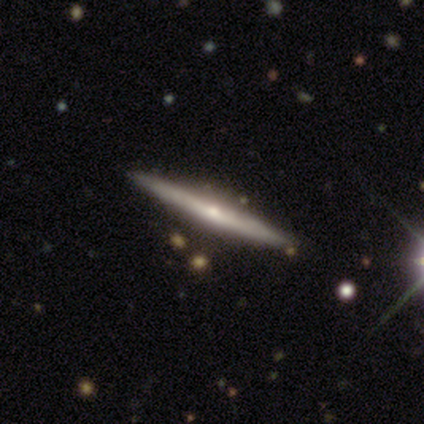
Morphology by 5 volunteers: Volunteers were most divided on "merging": none: 60%, minor disturbance: 20%, major disturbance: 20%, merger: 0%. More confident: smooth or featured — featured or disk (100%); edge-on disk — yes (100%); edge-on bulge — rounded (100%).